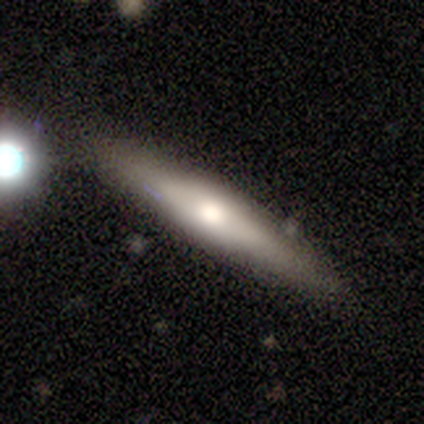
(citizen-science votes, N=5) smooth_or_featured: smooth (p=0.40) [tied with: featured or disk p=0.40]
how_rounded: cigar-shaped (p=1.00)
merging: none (p=0.75) [alt: minor disturbance p=0.25]